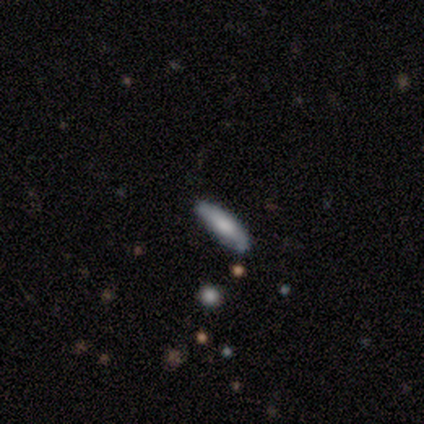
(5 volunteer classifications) This is likely a featured or disk galaxy (60%). It is likely viewed edge-on (67%). Edge-on bulge: possibly none (50%, tied with rounded). Merging: likely none (60%).